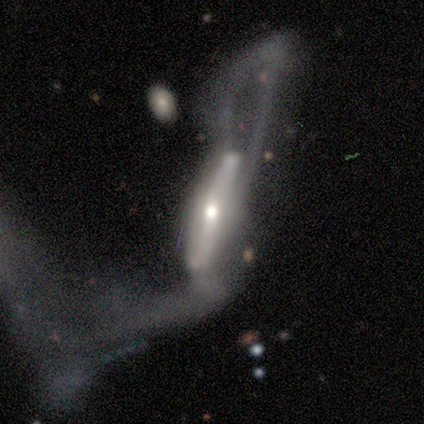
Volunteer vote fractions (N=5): Q: Smooth or featured?
A: featured or disk (80%); runner-up: smooth (20%)
Q: Edge-on disk?
A: yes (50%); tied with: no (50%)
Q: Edge-on bulge?
A: rounded (100%)
Q: Merging?
A: major disturbance (60%); runner-up: merger (40%)